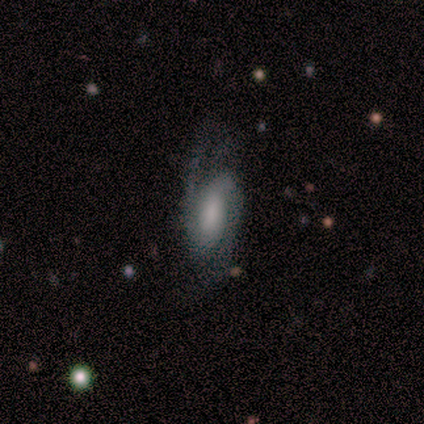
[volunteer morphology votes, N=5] Smooth or featured? 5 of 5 (100%) said featured or disk. Edge-on disk? 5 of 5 (100%) said no. Bar? 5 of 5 (100%) said no. Spiral arms? 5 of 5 (100%) said yes. Spiral winding? 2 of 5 (40%, tied with loose) said tight. Spiral arm count? 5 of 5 (100%) said 2. Bulge size? 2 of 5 (40%) said moderate. Merging? 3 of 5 (60%) said none.